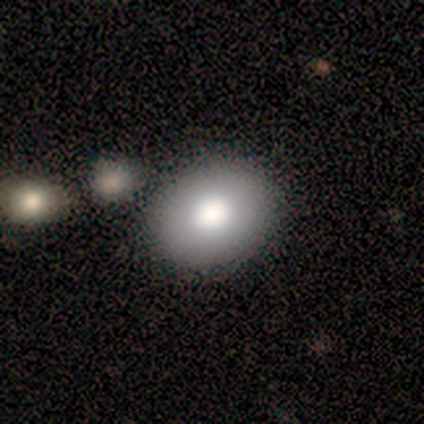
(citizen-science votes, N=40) Morphology: type=smooth (78%); roundness=in between (55%); merging=none (65%).